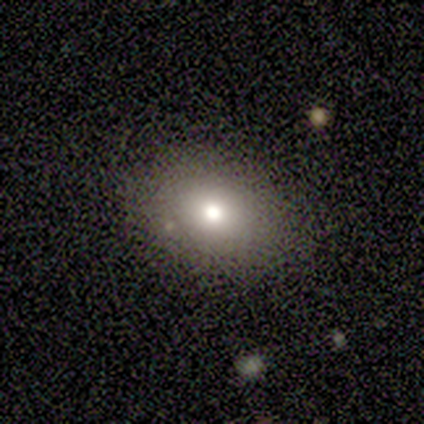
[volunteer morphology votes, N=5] A smooth galaxy with no disk features (60%) that is in between round and cigar-shaped (100%).

Vote fractions:
- Smooth or featured? smooth: 60% / featured or disk: 40% / star or artifact: 0%
- How rounded? in between: 100% / round: 0% / cigar-shaped: 0%
- Merging? none: 100% / minor disturbance: 0% / major disturbance: 0% / merger: 0%